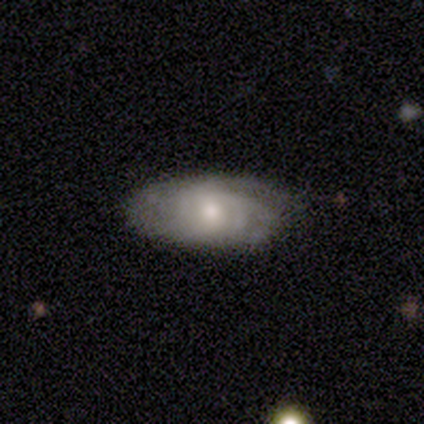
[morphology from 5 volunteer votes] Smooth or featured? featured or disk (80%)
Edge-on disk? no (75%)
Bar? no (100%)
Spiral arms? yes (67%)
Spiral winding? tight (50%, tied with loose)
Spiral arm count? can't tell (100%)
Bulge size? small (67%)
Merging? none (60%)